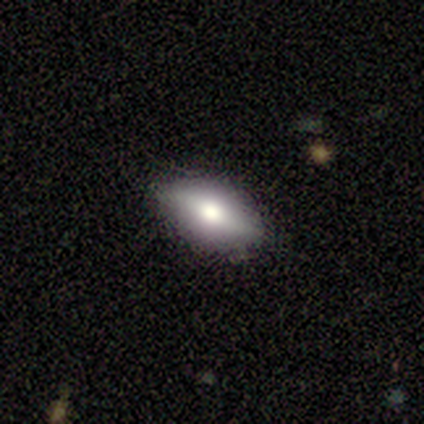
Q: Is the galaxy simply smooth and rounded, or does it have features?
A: smooth — 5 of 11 (45%).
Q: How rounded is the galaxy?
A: in between — 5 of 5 (100%).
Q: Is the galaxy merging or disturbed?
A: none — 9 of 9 (100%).